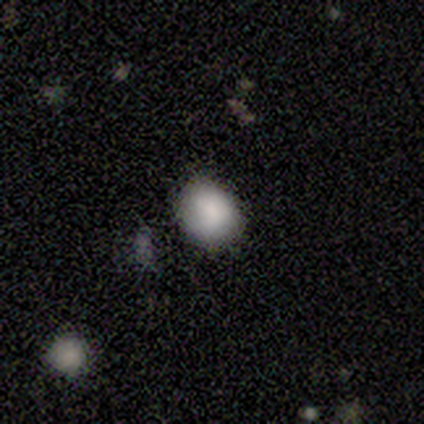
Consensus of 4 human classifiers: Overall: smooth (100%). How rounded: round (50%, tied with in between). Merging: none (75%).